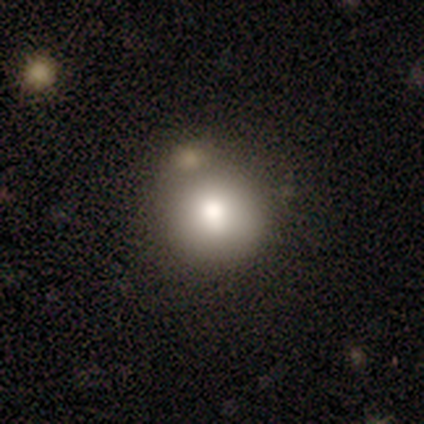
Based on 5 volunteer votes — Smooth or featured: smooth — 60% (featured or disk — 20%)
How rounded: round — 100%
Merging: minor disturbance — 50% (none — 25%)